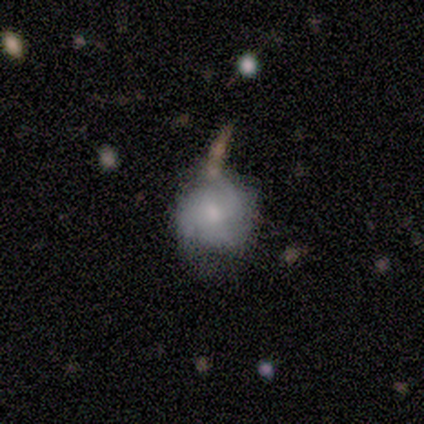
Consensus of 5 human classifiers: smooth_or_featured: featured or disk (p=0.80) [alt: smooth p=0.20]
disk_edge_on: no (p=1.00)
bar: no (p=1.00)
has_spiral_arms: no (p=0.75) [alt: yes p=0.25]
bulge_size: small (p=0.75) [alt: moderate p=0.25]
merging: none (p=0.60) [alt: minor disturbance p=0.20]